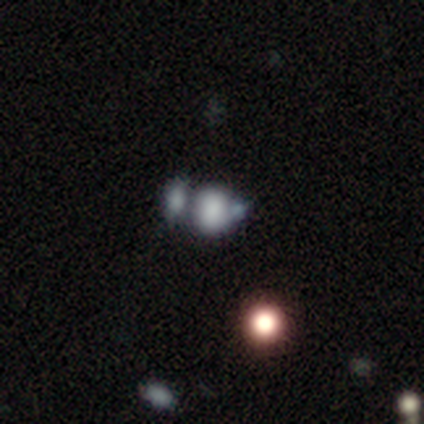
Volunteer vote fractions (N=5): A smooth galaxy with no disk features (80%) that is round (75%).

Vote fractions:
- Smooth or featured? smooth: 80% / featured or disk: 20% / star or artifact: 0%
- How rounded? round: 75% / in between: 25% / cigar-shaped: 0%
- Merging? none: 40% (tied) / merger: 40% (tied) / major disturbance: 20% / minor disturbance: 0%